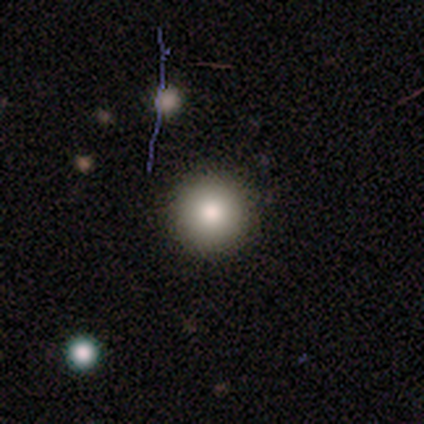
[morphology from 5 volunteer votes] Smooth or featured: smooth — 100%
How rounded: round — 100%
Merging: none — 100%